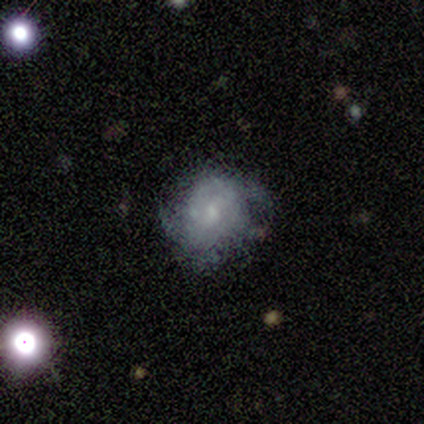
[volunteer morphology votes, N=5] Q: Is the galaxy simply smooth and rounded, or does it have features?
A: smooth — 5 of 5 (100%).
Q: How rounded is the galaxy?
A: round — 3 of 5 (60%).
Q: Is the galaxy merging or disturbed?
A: none — 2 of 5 (40%, tied with major disturbance).